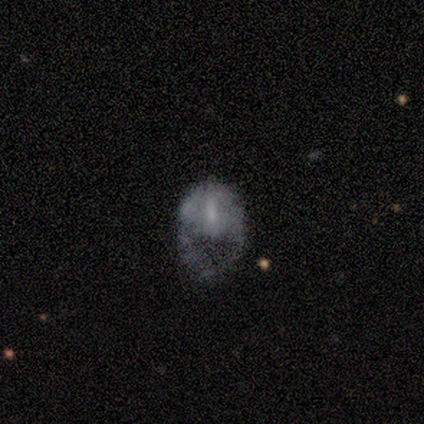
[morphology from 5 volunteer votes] featured or disk 60%, smooth 40%, star or artifact 0%. Down the decision tree: edge-on disk — no (100%); bar — no (67%); spiral arms — no (100%); bulge size — moderate (33%, tied with small and none); merging — major disturbance (60%).